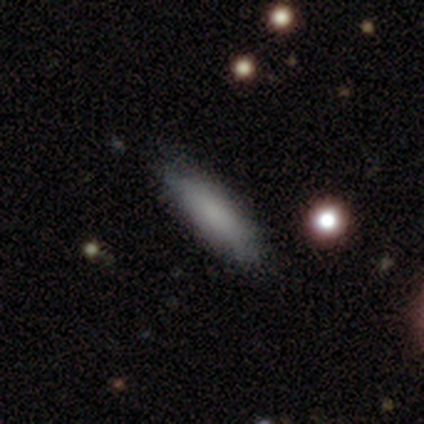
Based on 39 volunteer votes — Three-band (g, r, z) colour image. It shows a smooth galaxy with no disk features (85%) that is cigar-shaped (76%). Merging: none (87%).